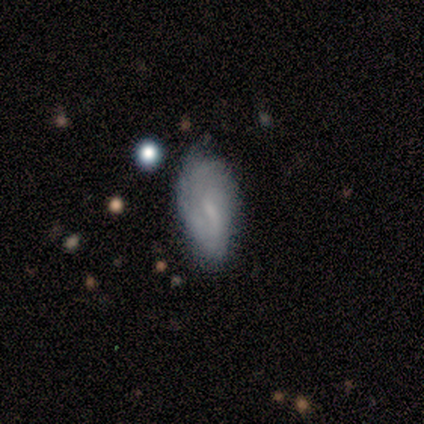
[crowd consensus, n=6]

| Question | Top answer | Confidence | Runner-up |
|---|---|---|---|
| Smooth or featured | smooth | 67% | featured or disk (33%) |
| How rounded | in between | 100% | — |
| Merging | none | 83% | minor disturbance (17%) |